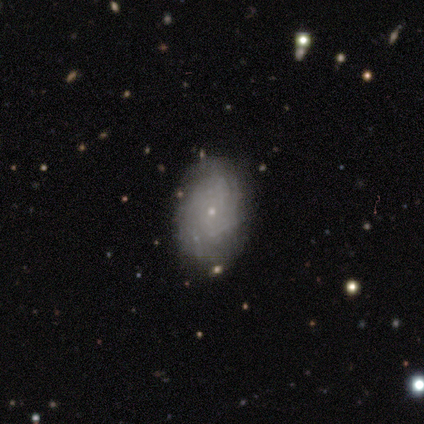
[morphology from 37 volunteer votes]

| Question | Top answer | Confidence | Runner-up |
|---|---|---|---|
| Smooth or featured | featured or disk | 62% | smooth (38%) |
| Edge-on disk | no | 87% | yes (13%) |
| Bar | no | 95% | strong (5%) |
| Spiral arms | yes | 90% | no (10%) |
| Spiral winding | tight | 72% | medium (17%) |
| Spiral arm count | can't tell | 72% | 3 (11%) |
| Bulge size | small | 80% | moderate (15%) |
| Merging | none | 95% | minor disturbance (3%) |